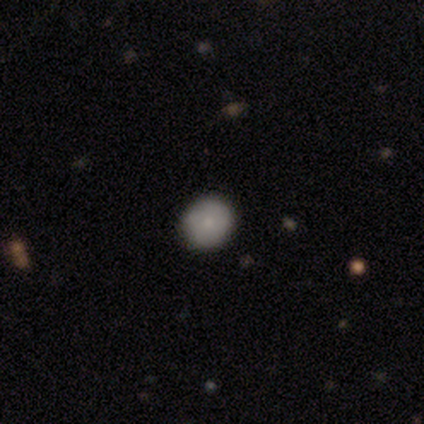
smooth_or_featured: smooth (p=0.60) [alt: featured or disk p=0.40]
how_rounded: round (p=1.00)
merging: none (p=1.00)